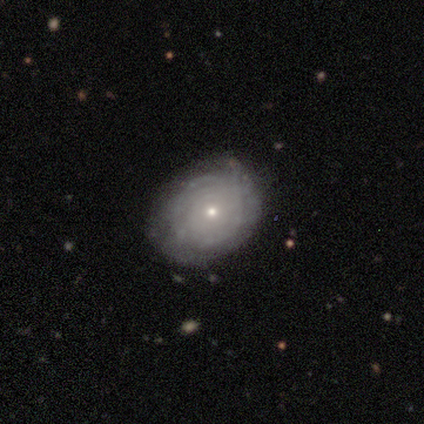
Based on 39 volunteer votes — Smooth or featured?
  - featured or disk: 72% *
  - smooth: 28%
  - star or artifact: 0%
Edge-on disk?
  - no: 100% *
  - yes: 0%
Bar?
  - no: 89% *
  - weak: 11%
  - strong: 0%
Spiral arms?
  - yes: 68% *
  - no: 32%
Spiral winding?
  - tight: 79% *
  - loose: 21%
  - medium: 0%
Spiral arm count?
  - can't tell: 74% *
  - more than 4: 16%
  - 2: 11%
  - 1: 0%
  - 3: 0%
  - 4: 0%
Bulge size?
  - small: 79% *
  - moderate: 21%
  - dominant: 0%
  - large: 0%
  - none: 0%
Merging?
  - none: 69% *
  - minor disturbance: 26%
  - major disturbance: 5%
  - merger: 0%